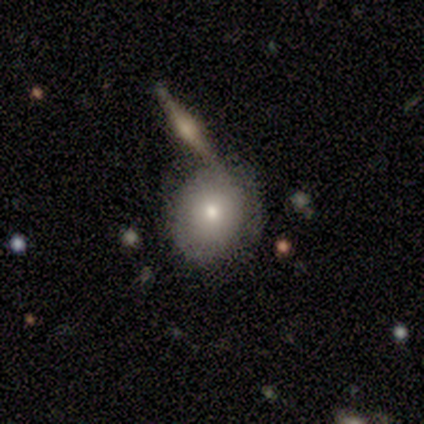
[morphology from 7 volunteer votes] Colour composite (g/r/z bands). It shows a featured or disk galaxy (43%) with no bar (100%), no spiral arms (100%) and a small central bulge (67%). Merging: none (40%, tied with minor disturbance).